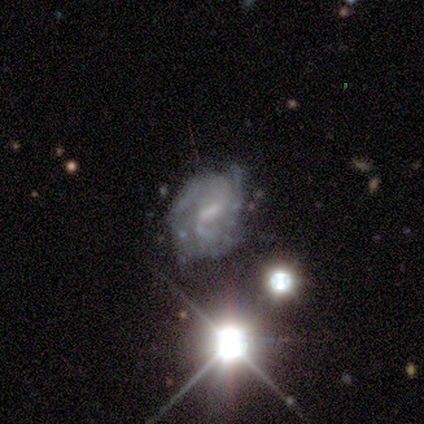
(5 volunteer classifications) Overall: featured or disk (60%; smooth 20%). Edge-on disk: no (100%). Bar: weak (100%). Spiral arms: yes (67%; no 33%). Spiral arm count: 2 (100%). Spiral winding: tight (100%). Bulge size: small (67%; none 33%). Merging: minor disturbance (50%; none 25%).